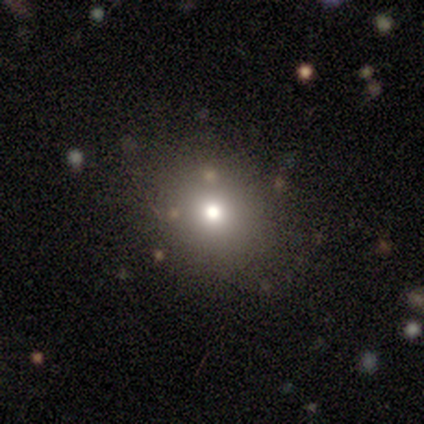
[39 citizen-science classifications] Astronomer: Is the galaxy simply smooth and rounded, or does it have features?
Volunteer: smooth — 62%.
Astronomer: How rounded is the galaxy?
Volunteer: round — 71%.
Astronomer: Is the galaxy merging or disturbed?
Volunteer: none — 79%.